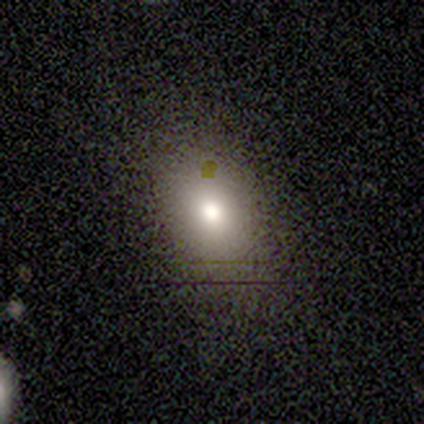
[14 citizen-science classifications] Smooth or featured?
  - smooth: 79% *
  - star or artifact: 21%
  - featured or disk: 0%
How rounded?
  - in between: 55% *
  - round: 45%
  - cigar-shaped: 0%
Merging?
  - none: 82% *
  - minor disturbance: 18%
  - major disturbance: 0%
  - merger: 0%